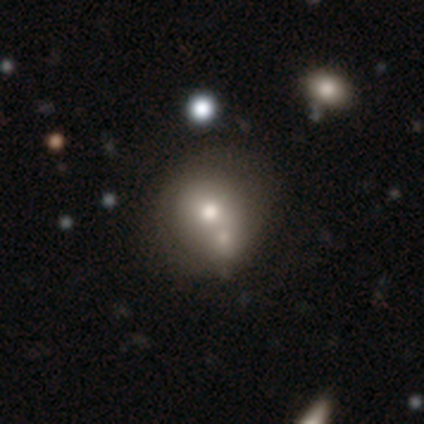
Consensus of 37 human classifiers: Smooth or featured? 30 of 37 (81%) said smooth. How rounded? 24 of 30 (80%) said round. Merging? 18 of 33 (55%) said merger.